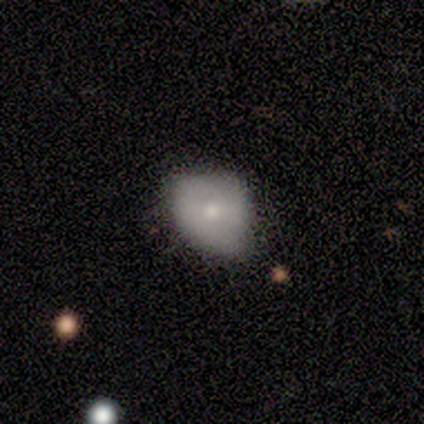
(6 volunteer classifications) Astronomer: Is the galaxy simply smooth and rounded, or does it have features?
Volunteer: smooth — 83%.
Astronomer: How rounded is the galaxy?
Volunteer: in between — 80%.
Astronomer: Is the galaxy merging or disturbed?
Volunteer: none — 50%, tied with minor disturbance at 50%.